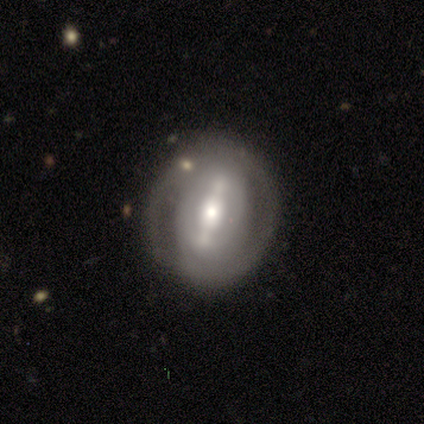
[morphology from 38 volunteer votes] Smooth or featured: featured or disk — 76% (smooth — 16%)
Edge-on disk: no — 86% (yes — 14%)
Bar: strong — 80% (weak — 12%)
Spiral arms: yes — 76% (no — 24%)
Spiral winding: tight — 84% (medium — 11%)
Spiral arm count: 2 — 58% (1 — 16%)
Bulge size: moderate — 76% (large — 20%)
Merging: none — 63% (minor disturbance — 23%)